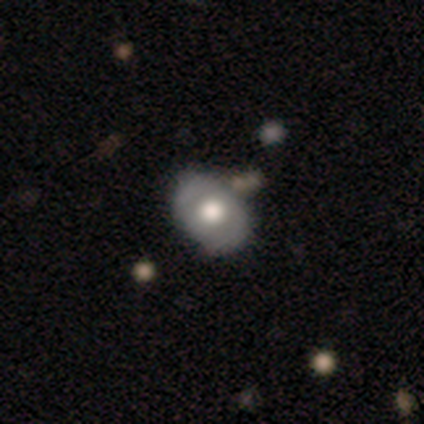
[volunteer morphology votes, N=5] A smooth galaxy with no disk features (60%) that is in between round and cigar-shaped (100%). Merging: none (50%).